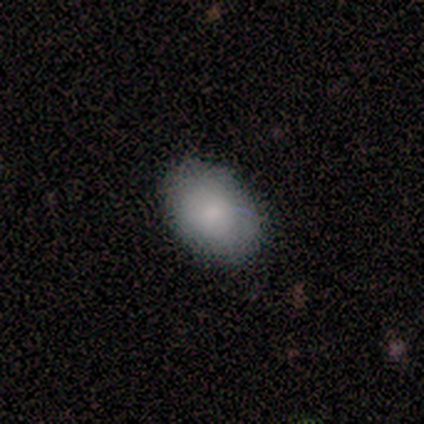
Smooth or featured: smooth — 75% (featured or disk — 25%)
How rounded: in between — 67% (round — 33%)
Merging: none — 100%